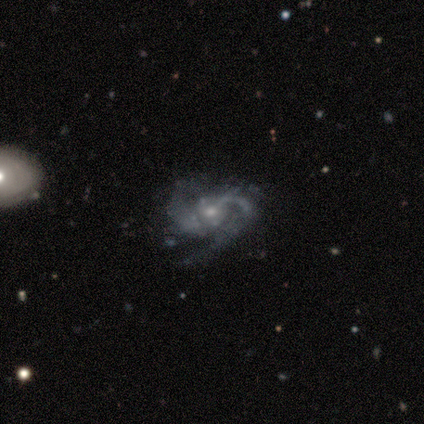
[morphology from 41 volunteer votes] type=featured or disk (90%); edge-on=no (100%); bar=no (65%); spiral arms=yes (100%); winding=medium (59%); arm count=2 (78%); bulge=small (76%); merging=none (46%).